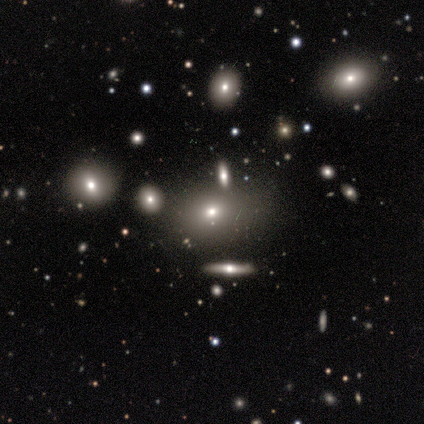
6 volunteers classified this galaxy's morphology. A smooth galaxy with no disk features (67%) that is in between round and cigar-shaped (100%). Merging: none (50%, tied with minor disturbance).